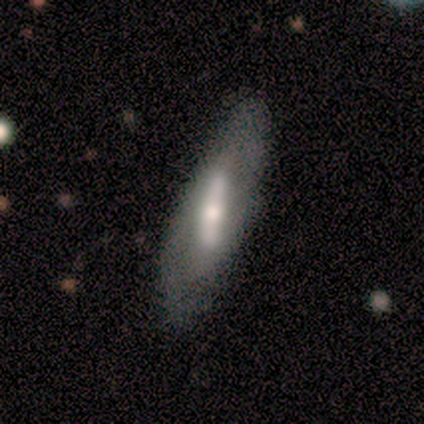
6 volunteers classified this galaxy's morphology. Overall: featured or disk (67%; smooth 33%). Edge-on disk: no (75%). Bar: strong (100%). Spiral arms: no (67%; yes 33%). Bulge size: moderate (67%; large 33%). Merging: none (83%).